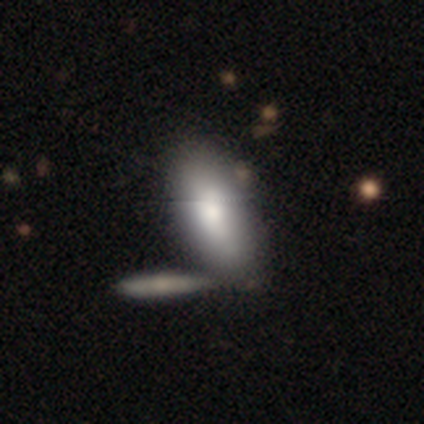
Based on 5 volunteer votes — smooth 60%, featured or disk 40%, star or artifact 0%. Down the decision tree: how rounded — in between (100%); merging — none (80%).